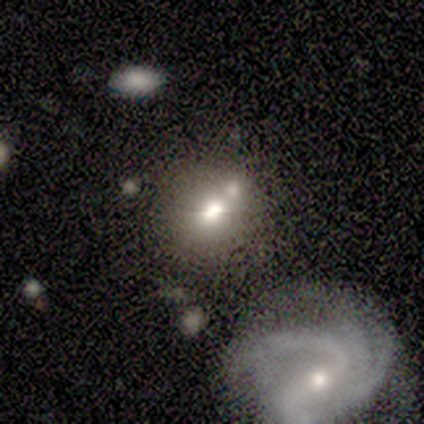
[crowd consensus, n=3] Morphology: type=featured or disk (67%); edge-on=no (100%); bar=no (100%); spiral arms=yes (50%, tied with no); winding=tight (100%); arm count=2 (100%); bulge=large (50%, tied with small); merging=merger (100%).